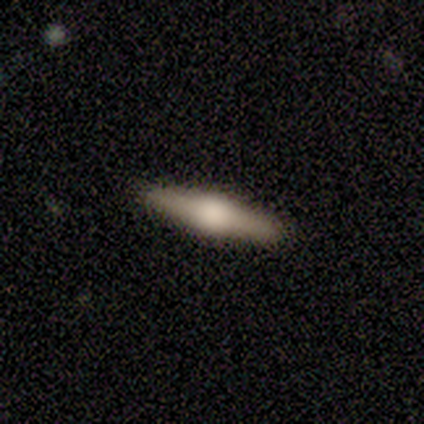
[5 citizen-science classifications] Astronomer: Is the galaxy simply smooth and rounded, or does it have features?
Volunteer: featured or disk — 80%.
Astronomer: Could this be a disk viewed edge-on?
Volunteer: yes — 75%.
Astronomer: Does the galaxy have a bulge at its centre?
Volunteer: rounded — 100%.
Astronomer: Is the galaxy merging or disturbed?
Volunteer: none — 100%.